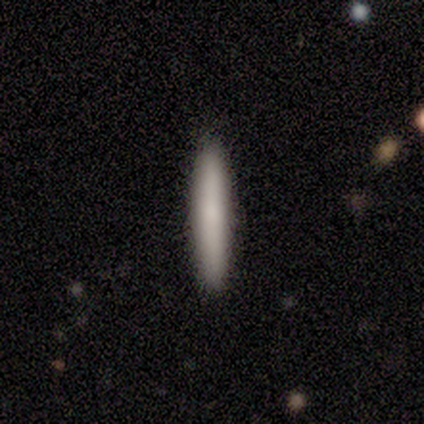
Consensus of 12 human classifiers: Smooth or featured?
  - smooth: 83% *
  - featured or disk: 17%
  - star or artifact: 0%
How rounded?
  - cigar-shaped: 90% *
  - in between: 10%
  - round: 0%
Merging?
  - none: 92% *
  - minor disturbance: 8%
  - major disturbance: 0%
  - merger: 0%